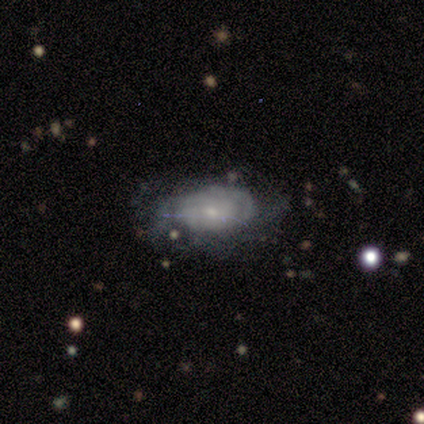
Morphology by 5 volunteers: Smooth or featured? 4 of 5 (80%) said featured or disk. Edge-on disk? 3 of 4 (75%) said no. Bar? 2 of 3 (67%) said no. Spiral arms? 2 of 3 (67%) said yes. Spiral winding? 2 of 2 (100%) said tight. Spiral arm count? 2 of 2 (100%) said can't tell. Bulge size? 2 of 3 (67%) said small. Merging? 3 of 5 (60%) said none.